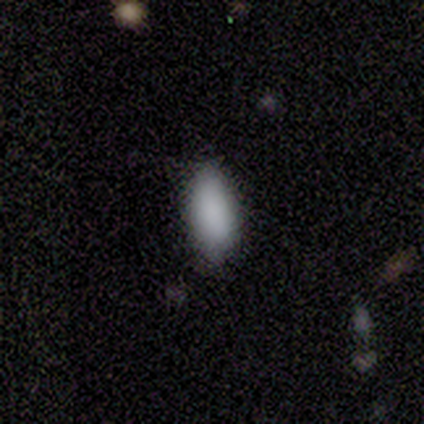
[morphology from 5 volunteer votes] smooth-or-featured: smooth: 80% | star or artifact: 20% | featured or disk: 0%
  how-rounded: in between: 75% | cigar-shaped: 25% | round: 0%
  merging: none: 100% | minor disturbance: 0% | major disturbance: 0% | merger: 0%